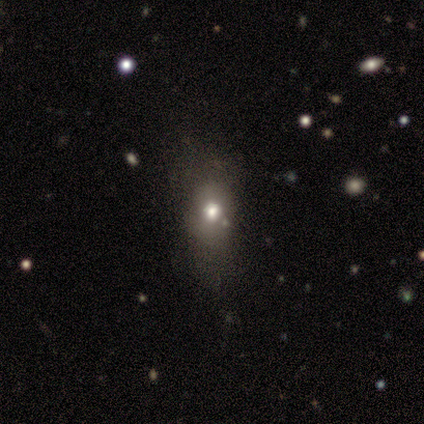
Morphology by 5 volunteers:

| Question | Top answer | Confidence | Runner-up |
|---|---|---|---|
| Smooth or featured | smooth | 80% | star or artifact (20%) |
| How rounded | in between | 75% | round (25%) |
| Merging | none | 100% | — |